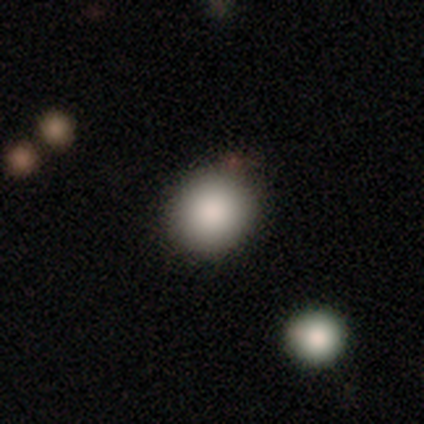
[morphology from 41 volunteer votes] Overall: smooth (88%). How rounded: round (89%). Merging: none (81%).